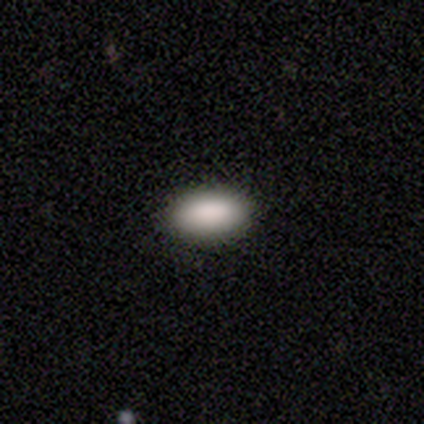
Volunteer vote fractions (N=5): Smooth or featured?
  - smooth: 100% *
  - featured or disk: 0%
  - star or artifact: 0%
How rounded?
  - in between: 100% *
  - round: 0%
  - cigar-shaped: 0%
Merging?
  - none: 100% *
  - minor disturbance: 0%
  - major disturbance: 0%
  - merger: 0%